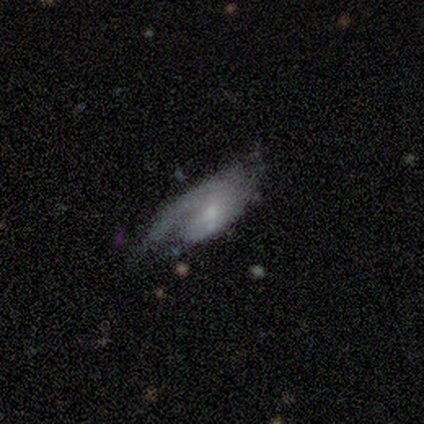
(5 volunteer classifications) A smooth galaxy with no disk features (60%) that is in between round and cigar-shaped (100%).

Vote fractions:
- Smooth or featured? smooth: 60% / featured or disk: 40% / star or artifact: 0%
- How rounded? in between: 100% / round: 0% / cigar-shaped: 0%
- Merging? none: 60% / major disturbance: 40% / minor disturbance: 0% / merger: 0%